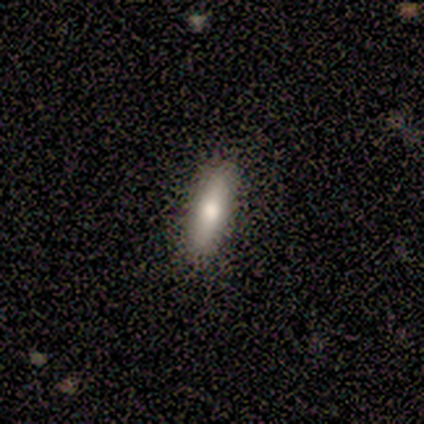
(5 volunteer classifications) smooth_or_featured: smooth (p=0.80) [alt: star or artifact p=0.20]
how_rounded: cigar-shaped (p=0.75) [alt: in between p=0.25]
merging: none (p=1.00)